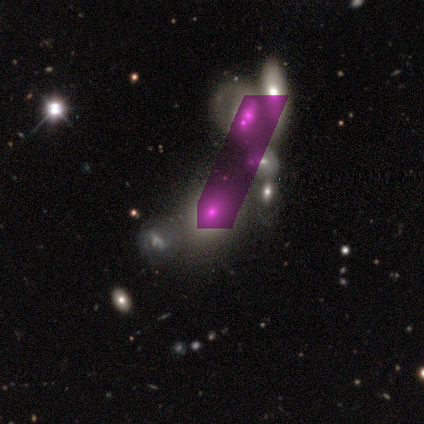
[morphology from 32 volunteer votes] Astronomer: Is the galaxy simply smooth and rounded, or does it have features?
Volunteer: smooth — 41%, tied with featured or disk at 41%.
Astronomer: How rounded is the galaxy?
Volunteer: in between — 54% (runner-up: round, 46%).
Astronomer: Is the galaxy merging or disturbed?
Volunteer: merger — 58%.